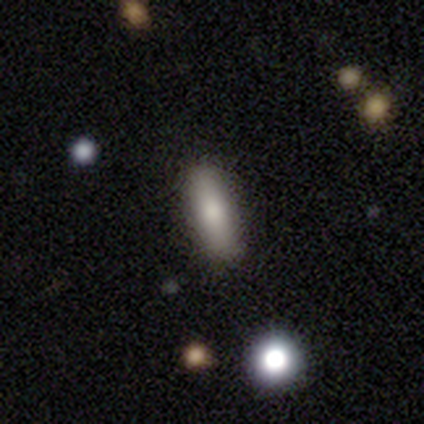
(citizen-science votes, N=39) Smooth or featured? 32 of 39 (82%) said smooth. How rounded? 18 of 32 (56%) said cigar-shaped. Merging? 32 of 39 (82%) said none.